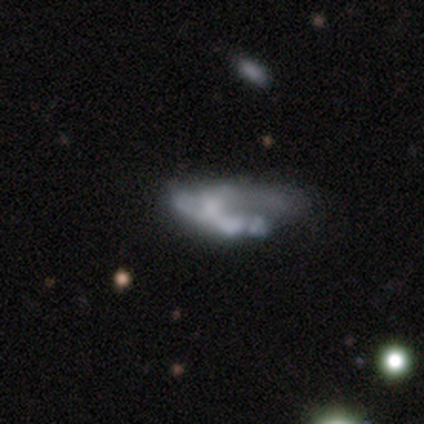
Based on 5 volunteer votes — Smooth or featured?
  - featured or disk: 60% *
  - smooth: 40%
  - star or artifact: 0%
Edge-on disk?
  - no: 100% *
  - yes: 0%
Bar?
  - no: 67% *
  - weak: 33%
  - strong: 0%
Spiral arms?
  - no: 100% *
  - yes: 0%
Bulge size?
  - none: 100% *
  - dominant: 0%
  - large: 0%
  - moderate: 0%
  - small: 0%
Merging?
  - major disturbance: 80% *
  - none: 20%
  - minor disturbance: 0%
  - merger: 0%